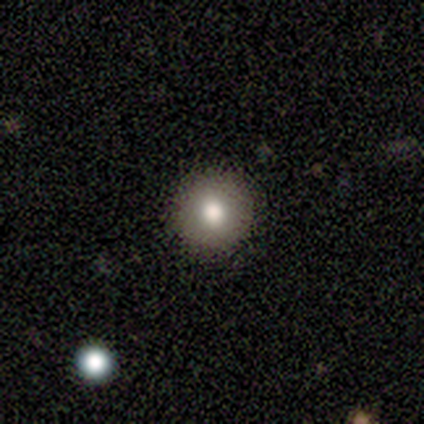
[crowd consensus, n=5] Smooth or featured? smooth (80%)
How rounded? round (100%)
Merging? none (100%)